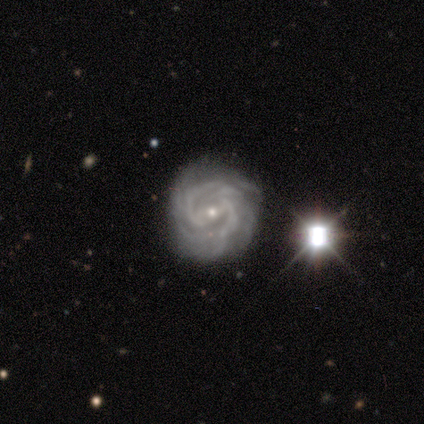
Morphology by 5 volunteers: A featured or disk galaxy (100%) with a weak bar (80%), 3 (40%, tied with 4) tight (60%) spiral arms (100%) and a small central bulge (60%). Merging: none (100%).